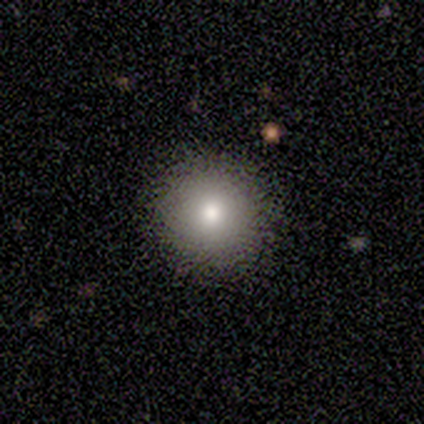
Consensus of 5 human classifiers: Smooth or featured?
  - smooth: 80% *
  - star or artifact: 20%
  - featured or disk: 0%
How rounded?
  - round: 100% *
  - in between: 0%
  - cigar-shaped: 0%
Merging?
  - none: 100% *
  - minor disturbance: 0%
  - major disturbance: 0%
  - merger: 0%